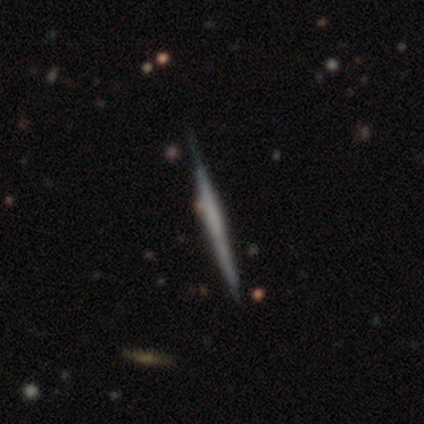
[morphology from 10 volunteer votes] type=smooth (50%, tied with featured or disk); roundness=cigar-shaped (100%); merging=none (80%).